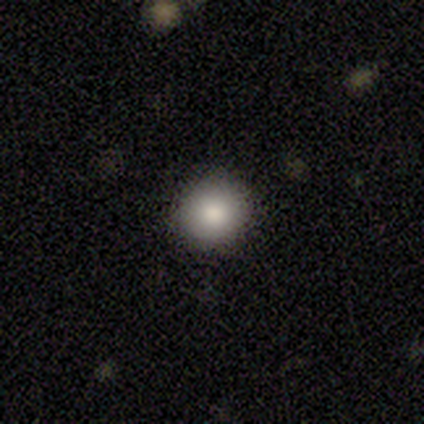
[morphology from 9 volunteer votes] smooth_or_featured: smooth (p=0.89) [alt: star or artifact p=0.11]
how_rounded: round (p=0.88) [alt: in between p=0.12]
merging: none (p=1.00)